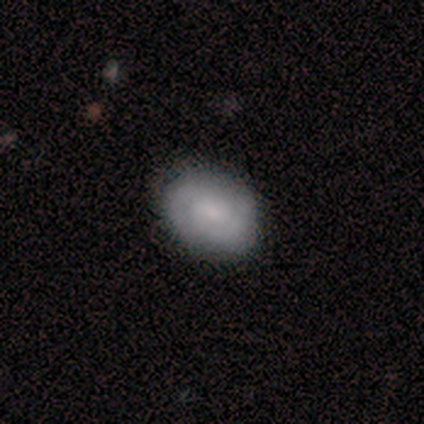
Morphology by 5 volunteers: This appears to be a smooth galaxy with no disk features (60%) that is in between round and cigar-shaped (100%). Merging: none (80%).